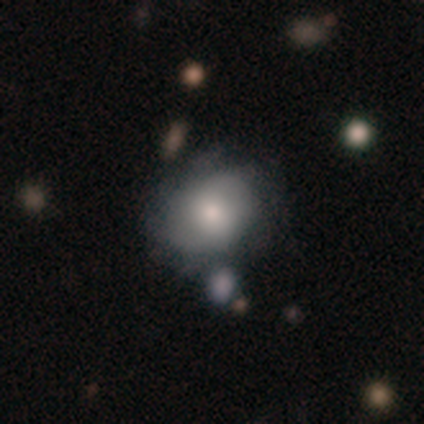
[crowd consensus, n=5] smooth-or-featured: smooth: 60% | featured or disk: 40% | star or artifact: 0%
  how-rounded: round: 67% | in between: 33% | cigar-shaped: 0%
  merging: none: 40% | minor disturbance: 20% | major disturbance: 20% | merger: 20%